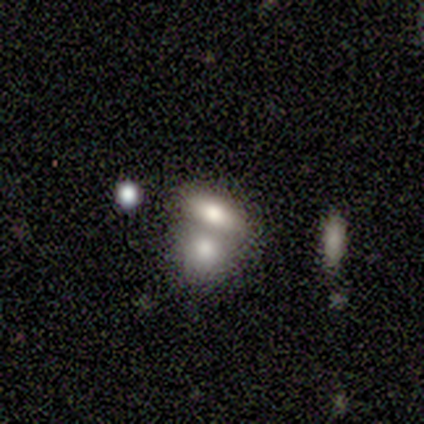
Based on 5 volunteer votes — Smooth or featured? smooth (60%)
How rounded? in between (100%)
Merging? merger (100%)